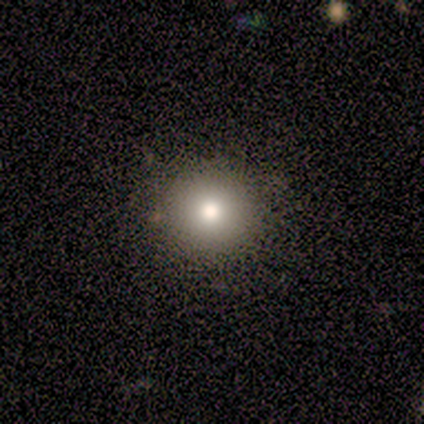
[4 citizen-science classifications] Q: Smooth or featured?
A: star or artifact (50%); runner-up: smooth (25%)